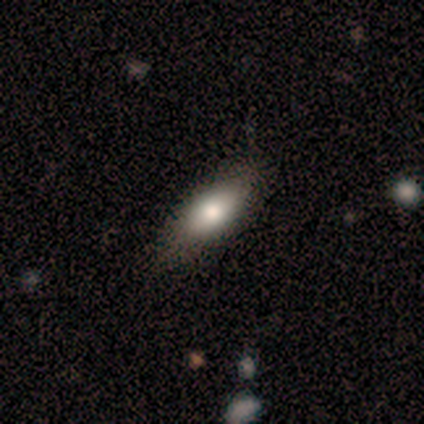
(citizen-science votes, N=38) Smooth or featured? smooth (79%)
How rounded? in between (87%)
Merging? none (78%)